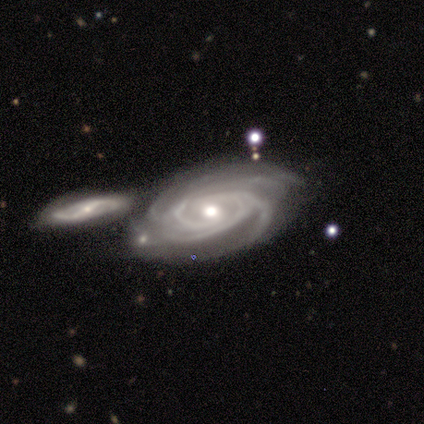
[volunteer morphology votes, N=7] Smooth or featured?
  - featured or disk: 100% *
  - smooth: 0%
  - star or artifact: 0%
Edge-on disk?
  - no: 100% *
  - yes: 0%
Bar?
  - no: 71% *
  - weak: 29%
  - strong: 0%
Spiral arms?
  - yes: 100% *
  - no: 0%
Spiral winding?
  - tight: 71% *
  - medium: 29%
  - loose: 0%
Spiral arm count?
  - 3: 43% * (tied)
  - 4: 43% * (tied)
  - can't tell: 14%
  - 1: 0%
  - 2: 0%
  - more than 4: 0%
Bulge size?
  - moderate: 71% *
  - small: 29%
  - dominant: 0%
  - large: 0%
  - none: 0%
Merging?
  - none: 43% * (tied)
  - merger: 43% * (tied)
  - minor disturbance: 14%
  - major disturbance: 0%